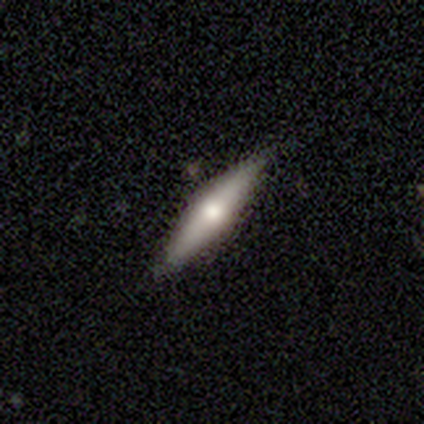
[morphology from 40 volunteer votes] Smooth or featured? featured or disk (57%)
Edge-on disk? yes (83%)
Edge-on bulge? rounded (84%)
Merging? none (84%)